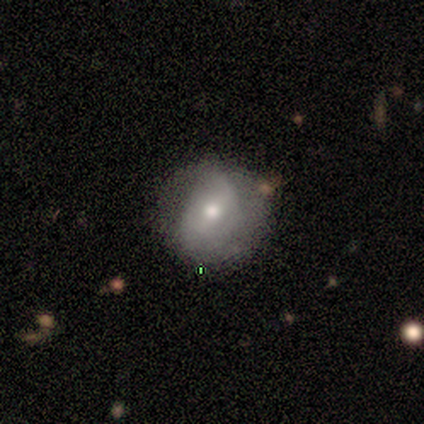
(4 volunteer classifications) Morphology: type=featured or disk (100%); edge-on=no (100%); bar=weak (75%); spiral arms=yes (100%); winding=medium (50%, tied with loose); arm count=2 (75%); bulge=small (75%); merging=none (100%).